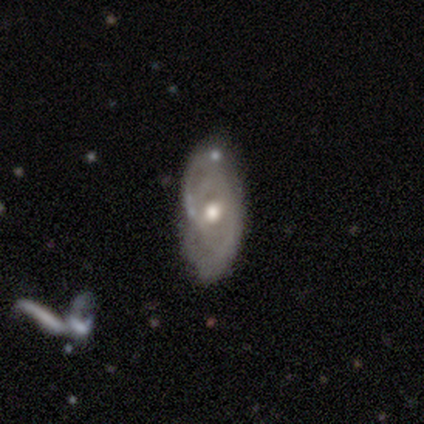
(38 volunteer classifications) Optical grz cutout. It shows a featured or disk galaxy (79%) with no bar (68%), 2 (65%) tight (35%, tied with loose) spiral arms (61%) and a moderate central bulge (82%). Merging: none (57%).